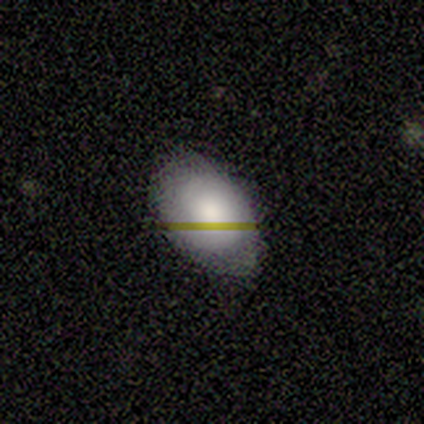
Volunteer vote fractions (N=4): This is possibly a smooth galaxy (50%). How rounded: possibly round (50%, tied with in between). Merging: likely none (67%).